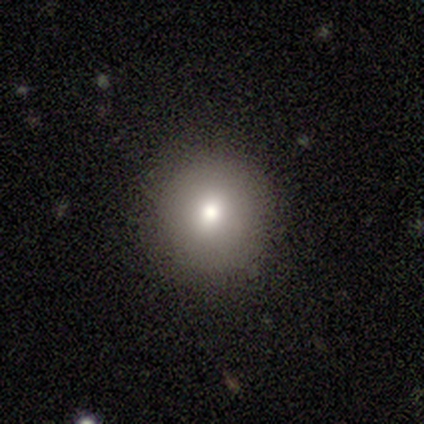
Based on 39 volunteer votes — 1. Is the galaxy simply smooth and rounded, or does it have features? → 85% smooth, 10% star or artifact, 5% featured or disk.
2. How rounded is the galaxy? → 100% round, 0% in between, 0% cigar-shaped.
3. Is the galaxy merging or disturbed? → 86% none, 11% minor disturbance, 3% major disturbance, 0% merger.